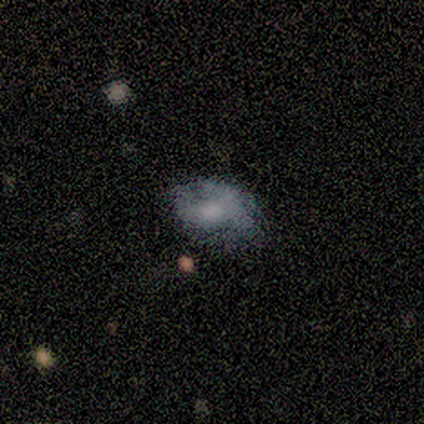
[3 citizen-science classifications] Smooth or featured: smooth — 33% (tied with featured or disk — 33%; star or artifact — 33%)
How rounded: in between — 100%
Merging: none — 50% (tied with merger — 50%)